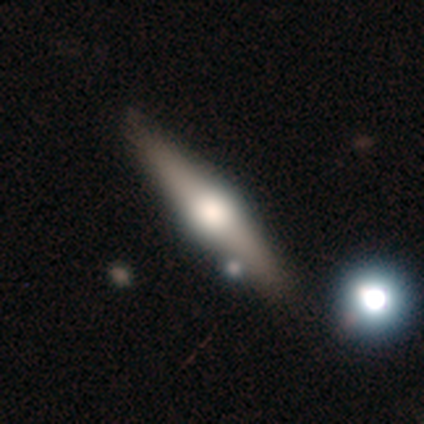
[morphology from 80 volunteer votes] featured or disk 68%, smooth 30%, star or artifact 2%. Down the decision tree: edge-on disk — yes (94%); edge-on bulge — rounded (94%); merging — none (36%).